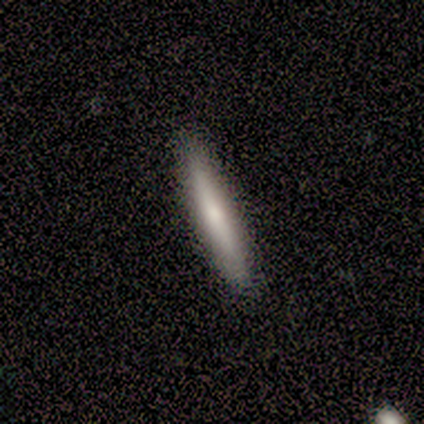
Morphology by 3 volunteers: Smooth or featured? 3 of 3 (100%) said smooth. How rounded? 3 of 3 (100%) said cigar-shaped. Merging? 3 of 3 (100%) said none.